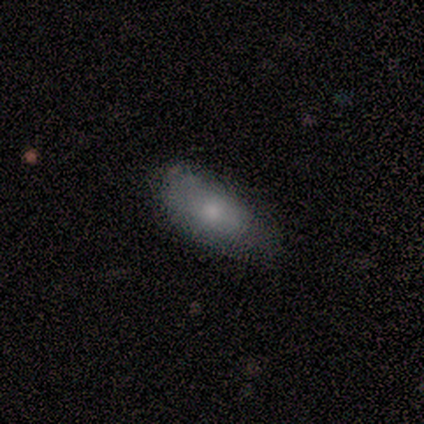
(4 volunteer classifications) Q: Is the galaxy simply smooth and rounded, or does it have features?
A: smooth — 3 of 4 (75%).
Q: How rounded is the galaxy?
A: in between — 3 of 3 (100%).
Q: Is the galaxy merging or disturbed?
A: none — 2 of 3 (67%).